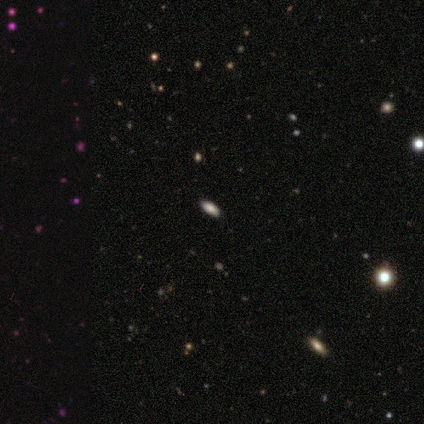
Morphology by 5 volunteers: smooth_or_featured: smooth (p=0.60) [alt: star or artifact p=0.40]
how_rounded: in between (p=1.00)
merging: none (p=1.00)